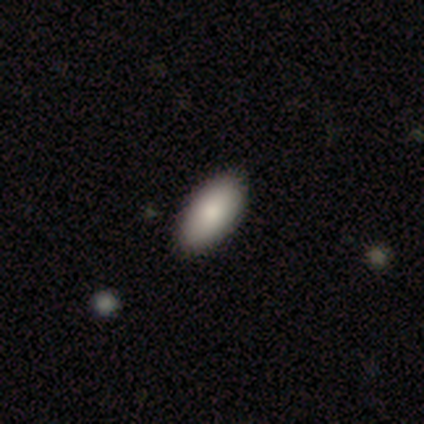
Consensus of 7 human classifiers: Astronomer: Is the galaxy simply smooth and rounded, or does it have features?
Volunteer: smooth — 100%.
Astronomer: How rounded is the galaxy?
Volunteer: in between — 86%.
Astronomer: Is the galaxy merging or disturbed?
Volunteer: none — 100%.